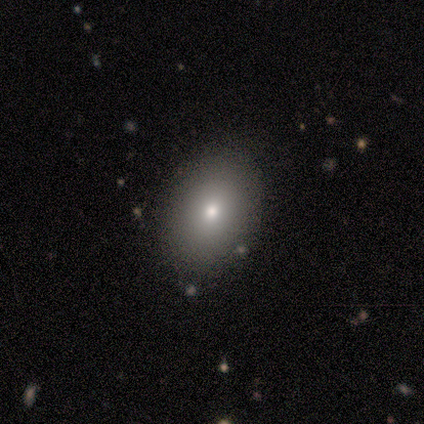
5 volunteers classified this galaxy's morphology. Smooth or featured? smooth (80%)
How rounded? in between (75%)
Merging? none (100%)